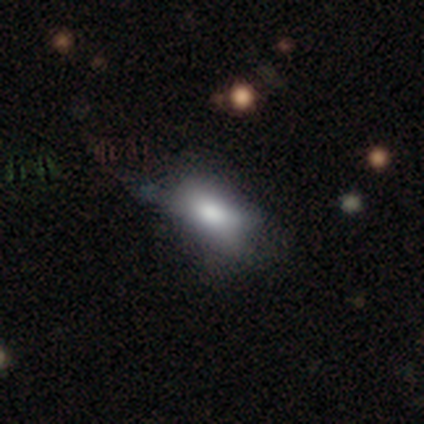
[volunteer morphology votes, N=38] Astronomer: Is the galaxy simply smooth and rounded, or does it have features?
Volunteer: smooth — 76%.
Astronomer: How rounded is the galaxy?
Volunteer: in between — 86%.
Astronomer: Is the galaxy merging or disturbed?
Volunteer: none — 53% (runner-up: minor disturbance, 36%).